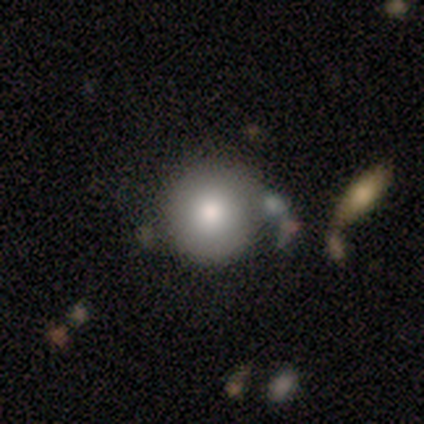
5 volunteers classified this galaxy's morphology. Overall: smooth (80%). How rounded: round (100%). Merging: none (100%).